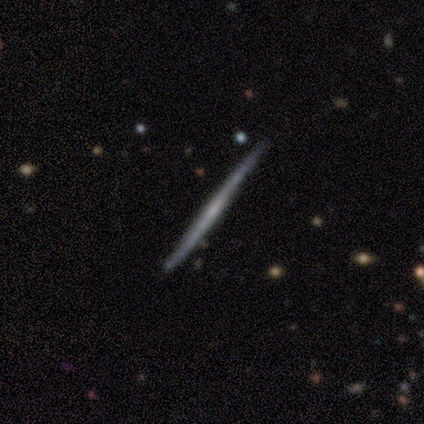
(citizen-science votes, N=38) smooth-or-featured: featured or disk: 63% | smooth: 32% | star or artifact: 5%
  disk-edge-on: yes: 96% | no: 4%
    edge-on-bulge: none: 96% | rounded: 4% | boxy: 0%
  merging: none: 92% | minor disturbance: 6% | major disturbance: 3% | merger: 0%